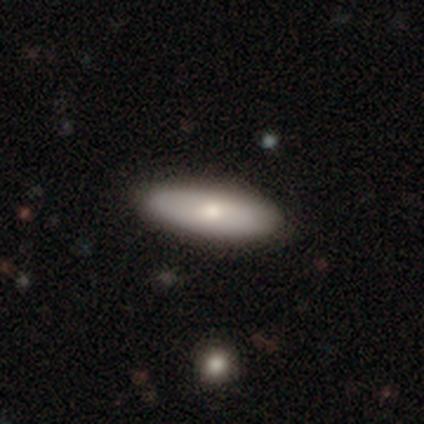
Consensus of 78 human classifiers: smooth-or-featured: smooth: 82% | featured or disk: 18% | star or artifact: 0%
  how-rounded: in between: 73% | cigar-shaped: 27% | round: 0%
  merging: none: 46% | minor disturbance: 4% | major disturbance: 0% | merger: 0%